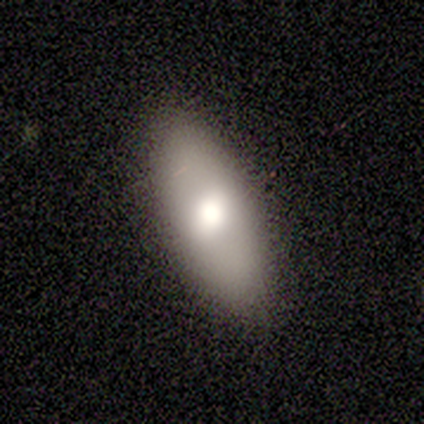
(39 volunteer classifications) A smooth galaxy with no disk features (87%) that is in between round and cigar-shaped (88%).

Vote fractions:
- Smooth or featured? smooth: 87% / featured or disk: 13% / star or artifact: 0%
- How rounded? in between: 88% / cigar-shaped: 9% / round: 3%
- Merging? none: 87% / minor disturbance: 8% / major disturbance: 3% / merger: 3%